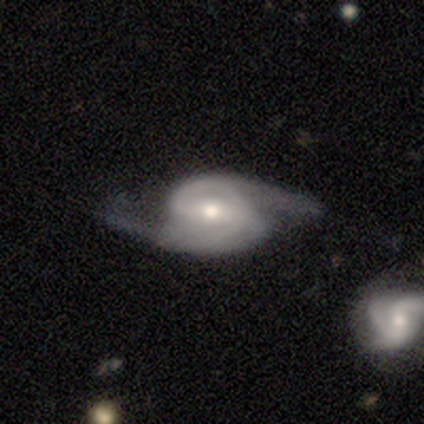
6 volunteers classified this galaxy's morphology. A featured or disk galaxy (83%) with a weak bar (40%, tied with no), 2 (100%) medium (60%) spiral arms (100%) and a moderate central bulge (60%). Merging: none (83%).